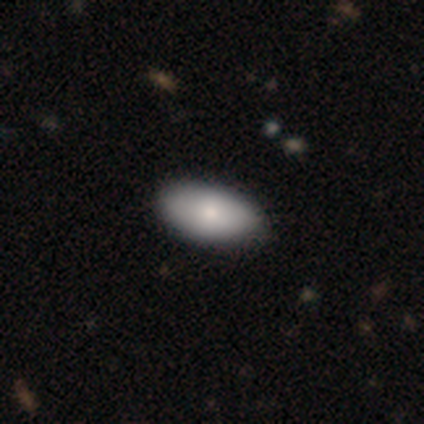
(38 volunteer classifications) Smooth or featured? 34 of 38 (89%) said smooth. How rounded? 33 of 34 (97%) said in between. Merging? 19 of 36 (53%) said none.